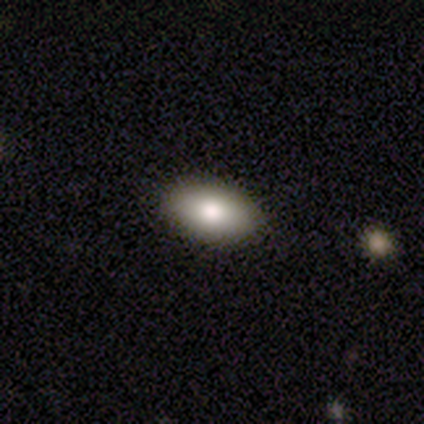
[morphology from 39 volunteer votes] Smooth or featured?
  - smooth: 72% *
  - star or artifact: 15%
  - featured or disk: 13%
How rounded?
  - in between: 96% *
  - round: 4%
  - cigar-shaped: 0%
Merging?
  - none: 97% *
  - minor disturbance: 3%
  - major disturbance: 0%
  - merger: 0%